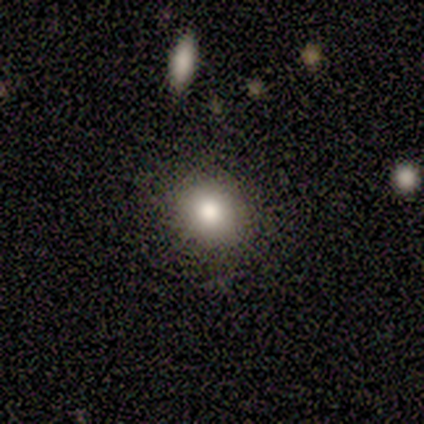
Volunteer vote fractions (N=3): This appears to be a smooth galaxy with no disk features (100%) that is round (100%). Merging: none (100%).